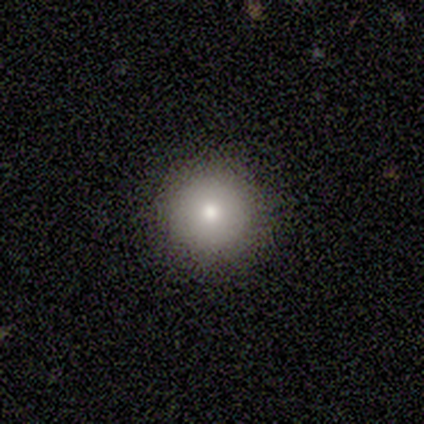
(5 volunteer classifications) Overall: smooth (60%; featured or disk 20%). How rounded: round (100%). Merging: none (100%).